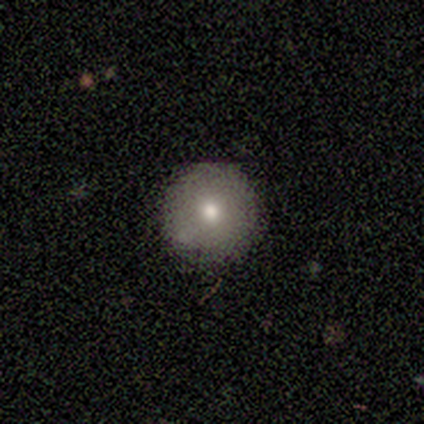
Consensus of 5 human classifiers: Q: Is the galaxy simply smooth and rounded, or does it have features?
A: smooth — 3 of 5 (60%).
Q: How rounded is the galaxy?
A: round — 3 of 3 (100%).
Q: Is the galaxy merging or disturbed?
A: none — 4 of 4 (100%).